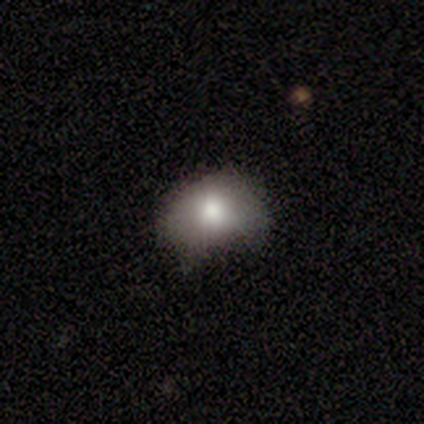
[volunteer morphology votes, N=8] type=smooth (100%); roundness=in between (88%); merging=none (62%).